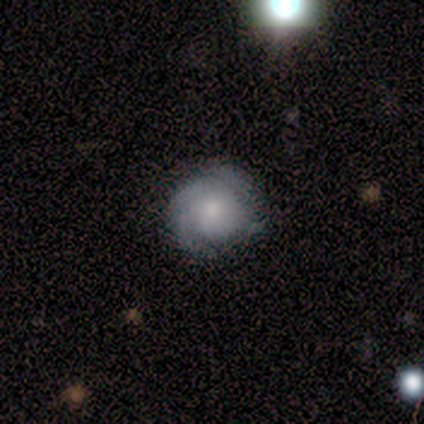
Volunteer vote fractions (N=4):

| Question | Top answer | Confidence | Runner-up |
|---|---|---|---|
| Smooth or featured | featured or disk | 100% | — |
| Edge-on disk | no | 75% | yes (25%) |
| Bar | no | 100% | — |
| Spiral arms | yes | 100% | — |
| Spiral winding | tight | 67% | medium (33%) |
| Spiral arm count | can't tell | 67% | 2 (33%) |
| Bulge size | moderate | 100% | — |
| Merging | none | 75% | merger (25%) |